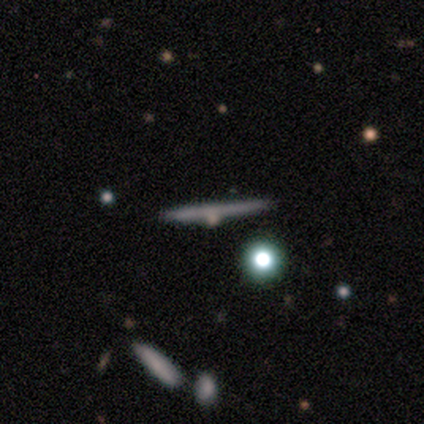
This appears to be a featured or disk galaxy (80%) viewed edge-on (75%) with no central bulge (100%). Merging: none (80%).